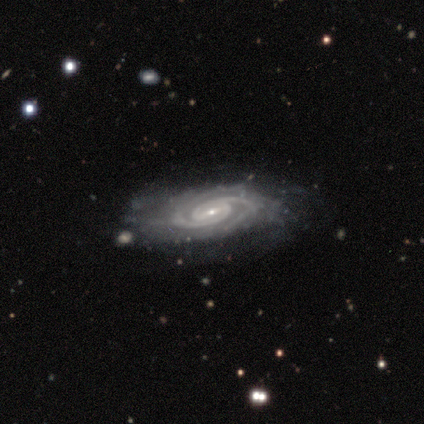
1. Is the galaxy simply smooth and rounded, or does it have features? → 100% featured or disk, 0% smooth, 0% star or artifact.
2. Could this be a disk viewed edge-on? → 100% no, 0% yes.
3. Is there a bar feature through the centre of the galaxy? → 40% strong (tied), 40% no (tied), 20% weak.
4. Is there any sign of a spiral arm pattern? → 100% yes, 0% no.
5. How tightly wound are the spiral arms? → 100% tight, 0% medium, 0% loose.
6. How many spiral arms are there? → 80% 2, 20% can't tell, 0% 1, 0% 3, 0% 4, 0% more than 4.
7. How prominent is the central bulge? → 80% small, 20% moderate, 0% dominant, 0% large, 0% none.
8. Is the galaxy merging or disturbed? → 60% none, 20% minor disturbance, 20% major disturbance, 0% merger.